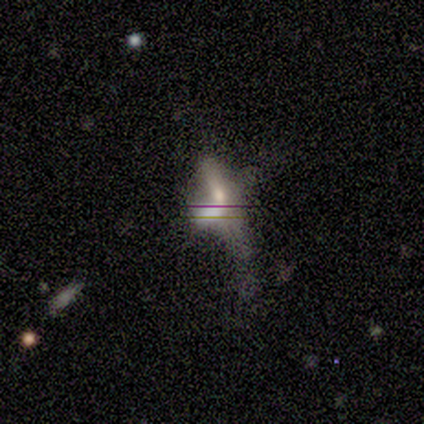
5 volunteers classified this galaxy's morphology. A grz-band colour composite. It shows a featured or disk galaxy (60%) with a weak bar (67%), no spiral arms (100%) and a large central bulge (33%, tied with moderate and small). Merging: none (33%, tied with minor disturbance and merger).